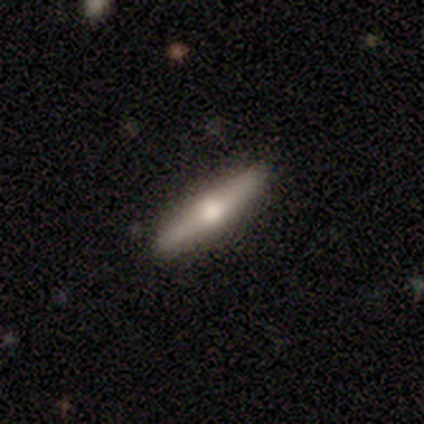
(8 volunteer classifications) Smooth or featured? 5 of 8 (62%) said featured or disk. Edge-on disk? 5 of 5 (100%) said yes. Edge-on bulge? 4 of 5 (80%) said rounded. Merging? 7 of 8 (88%) said none.